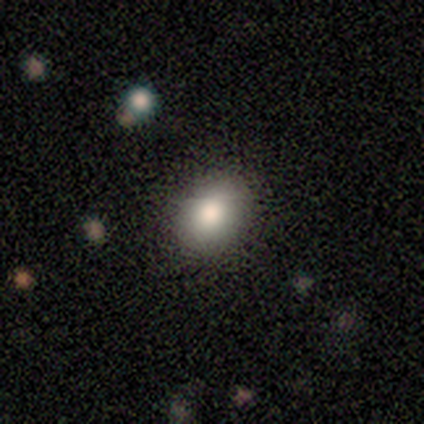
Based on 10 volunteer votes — Smooth or featured? smooth (100%)
How rounded? in between (80%)
Merging? none (90%)